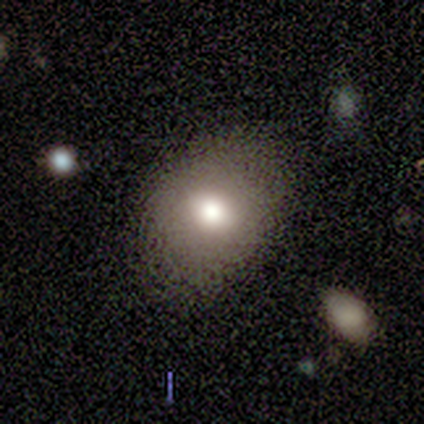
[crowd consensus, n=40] Overall: smooth (70%). How rounded: in between (68%; round 32%). Merging: none (79%).